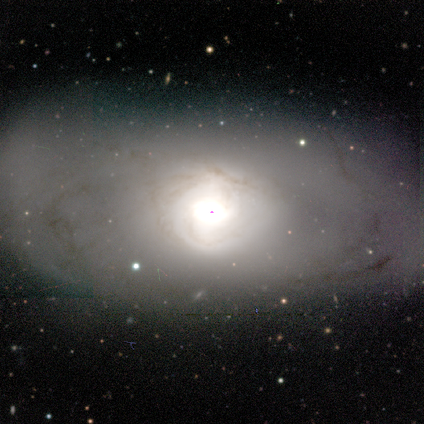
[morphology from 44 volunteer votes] Smooth or featured? featured or disk (75%)
Edge-on disk? no (100%)
Bar? no (79%)
Spiral arms? yes (55%)
Spiral winding? tight (78%)
Spiral arm count? 2 (44%)
Bulge size? large (48%)
Merging? none (57%)